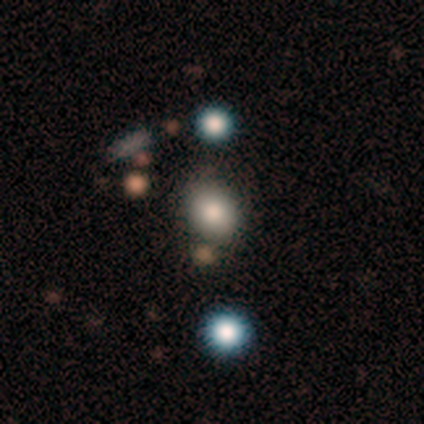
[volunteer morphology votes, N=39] Overall: smooth (67%). How rounded: round (62%; in between 38%). Merging: none (79%).